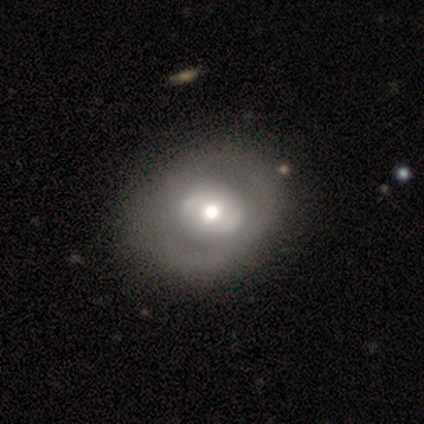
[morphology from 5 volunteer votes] A featured or disk galaxy (60%) with no bar (67%), no spiral arms (67%) and a moderate central bulge (67%).

Vote fractions:
- Smooth or featured? featured or disk: 60% / smooth: 40% / star or artifact: 0%
- Edge-on disk? no: 100% / yes: 0%
- Bar? no: 67% / strong: 33% / weak: 0%
- Spiral arms? no: 67% / yes: 33%
- Bulge size? moderate: 67% / large: 33% / dominant: 0% / small: 0% / none: 0%
- Merging? none: 60% / minor disturbance: 40% / major disturbance: 0% / merger: 0%